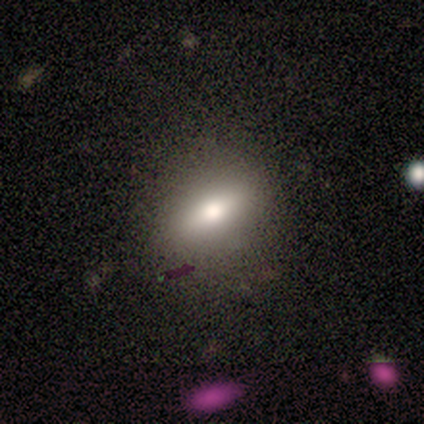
smooth-or-featured: smooth: 60% | featured or disk: 40% | star or artifact: 0%
  how-rounded: in between: 100% | round: 0% | cigar-shaped: 0%
  merging: none: 80% | major disturbance: 20% | minor disturbance: 0% | merger: 0%